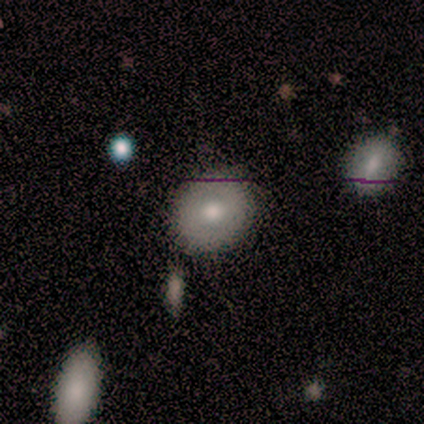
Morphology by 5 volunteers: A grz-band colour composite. It shows a smooth galaxy with no disk features (80%) that is round (100%). Merging: none (100%).